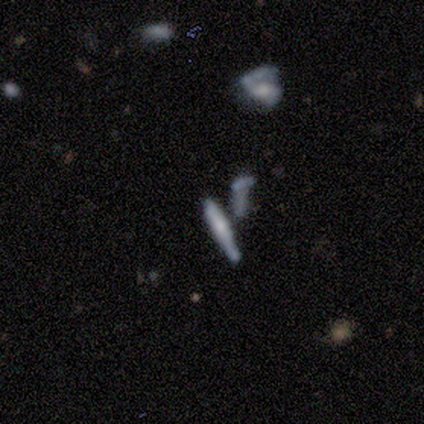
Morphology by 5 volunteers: Overall: smooth (80%). How rounded: cigar-shaped (100%). Merging: none (40%, tied with merger).